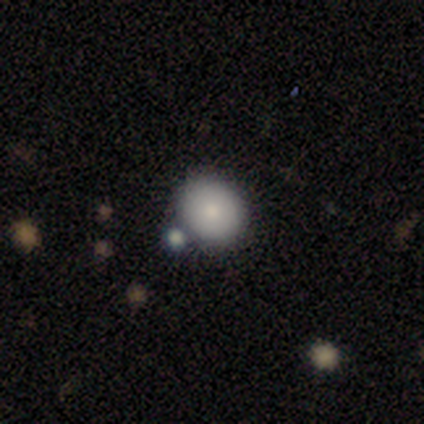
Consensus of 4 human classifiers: Volunteers were most divided on "how rounded": round: 67%, in between: 33%, cigar-shaped: 0%. More confident: smooth or featured — smooth (75%); merging — none (75%).